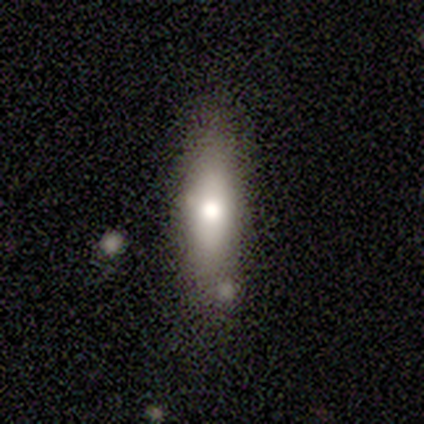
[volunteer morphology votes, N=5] smooth 80%, featured or disk 20%, star or artifact 0%. Down the decision tree: how rounded — in between (75%); merging — none (40%, tied with merger).